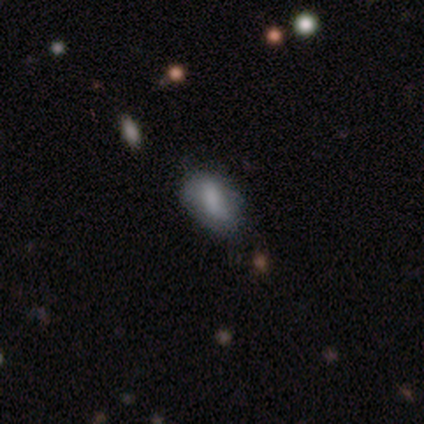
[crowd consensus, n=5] Volunteers were most divided on "merging": none: 60%, minor disturbance: 20%, merger: 20%, major disturbance: 0%. More confident: how rounded — in between (100%); smooth or featured — smooth (80%).